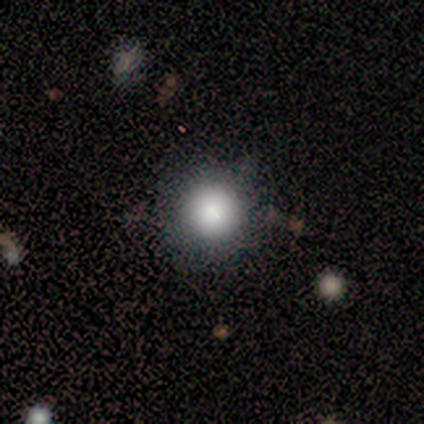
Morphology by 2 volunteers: smooth-or-featured: smooth: 50% (tied) | featured or disk: 50% (tied) | star or artifact: 0%
  how-rounded: round: 100% | in between: 0% | cigar-shaped: 0%
  merging: none: 50% (tied) | minor disturbance: 50% (tied) | major disturbance: 0% | merger: 0%